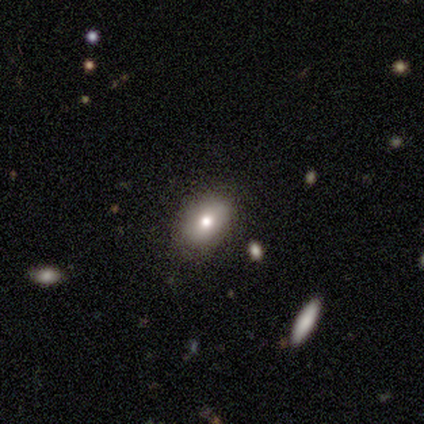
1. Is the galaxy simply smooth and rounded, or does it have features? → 60% smooth, 20% featured or disk, 20% star or artifact.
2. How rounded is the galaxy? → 67% in between, 33% round, 0% cigar-shaped.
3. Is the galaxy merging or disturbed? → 100% none, 0% minor disturbance, 0% major disturbance, 0% merger.